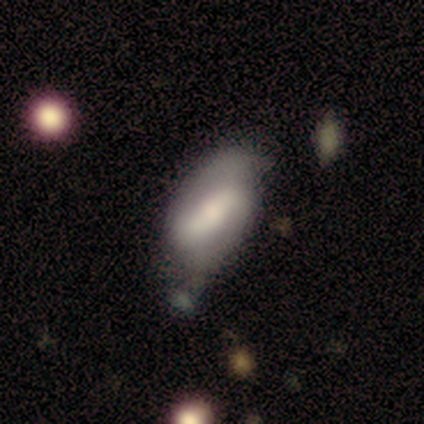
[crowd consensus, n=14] smooth_or_featured: smooth (p=0.57) [alt: featured or disk p=0.36]
how_rounded: in between (p=1.00)
merging: minor disturbance (p=0.46) [alt: none p=0.38]